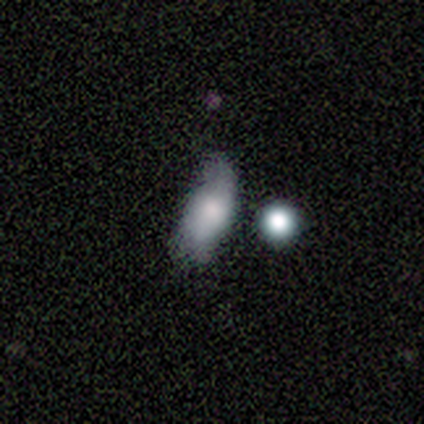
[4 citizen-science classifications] Volunteers were most divided on "bulge size" (3-way tie): moderate: 33%, small: 33%, none: 33%, dominant: 0%, large: 0%. More confident: edge-on disk — no (100%); bar — no (100%); spiral arms — no (100%); smooth or featured — featured or disk (75%); merging — minor disturbance (50%).